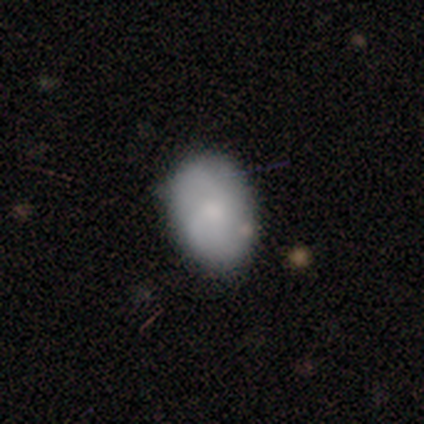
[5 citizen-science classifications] This appears to be a smooth galaxy with no disk features (40%, tied with star or artifact) that is in between round and cigar-shaped (100%). Merging: none (100%).